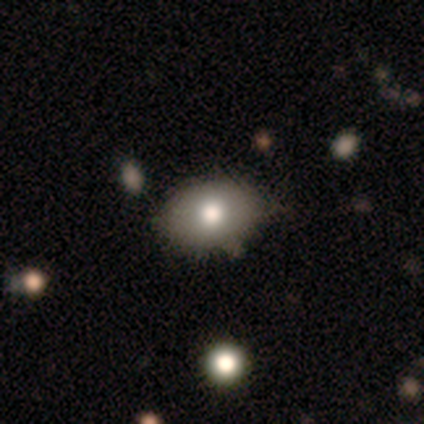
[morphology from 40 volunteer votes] smooth_or_featured: smooth (p=0.82) [alt: featured or disk p=0.15]
how_rounded: in between (p=0.97) [alt: round p=0.03]
merging: none (p=0.38) [alt: minor disturbance p=0.13]